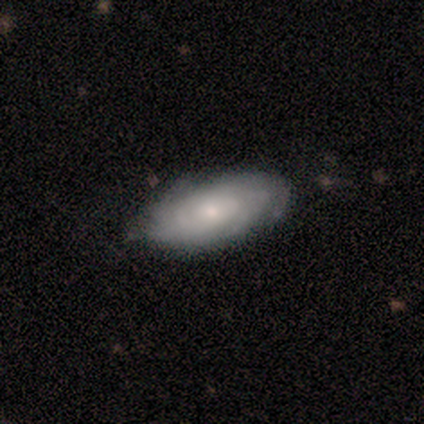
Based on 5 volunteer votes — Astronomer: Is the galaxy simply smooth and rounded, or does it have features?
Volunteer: featured or disk — 80%.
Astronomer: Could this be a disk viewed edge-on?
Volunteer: no — 100%.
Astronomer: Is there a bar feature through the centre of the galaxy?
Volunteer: weak — 50%, tied with no at 50%.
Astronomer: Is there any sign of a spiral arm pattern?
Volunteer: yes — 100%.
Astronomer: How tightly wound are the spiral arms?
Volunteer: loose — 50%.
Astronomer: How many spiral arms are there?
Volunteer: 2 — 25%, tied with 3, more than 4 and can't tell at 25%.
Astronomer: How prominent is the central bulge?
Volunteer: moderate — 50%, tied with small at 50%.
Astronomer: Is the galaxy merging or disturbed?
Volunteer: none — 100%.